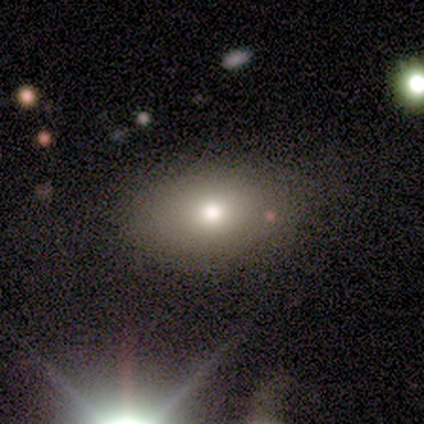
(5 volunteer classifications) Q: Smooth or featured?
A: smooth (80%); runner-up: star or artifact (20%)
Q: How rounded?
A: in between (75%); runner-up: round (25%)
Q: Merging?
A: none (100%)